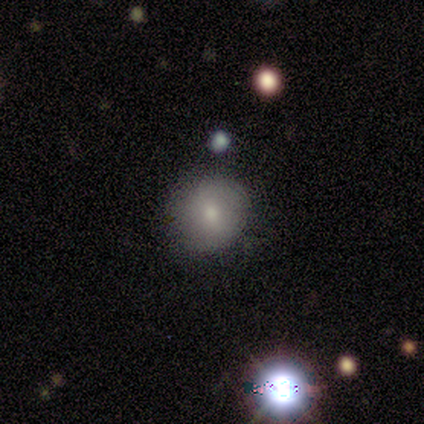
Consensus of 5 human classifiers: This is clearly a smooth galaxy (80%). How rounded: likely round (75%). Merging: possibly none (50%, tied with minor disturbance).